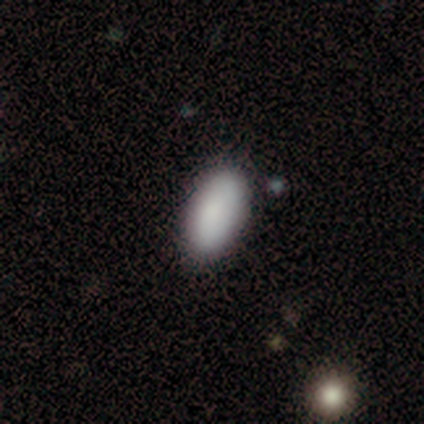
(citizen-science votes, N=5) Smooth or featured?
  - smooth: 80% *
  - star or artifact: 20%
  - featured or disk: 0%
How rounded?
  - in between: 75% *
  - round: 25%
  - cigar-shaped: 0%
Merging?
  - minor disturbance: 75% *
  - none: 25%
  - major disturbance: 0%
  - merger: 0%